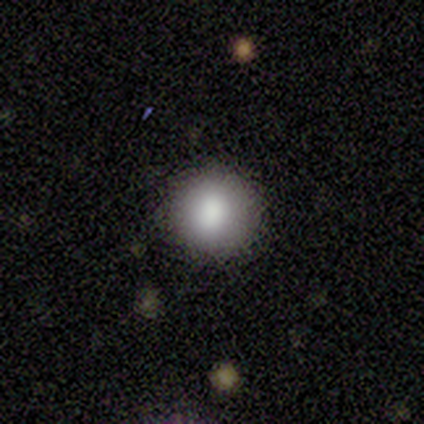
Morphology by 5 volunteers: smooth-or-featured: smooth: 100% | featured or disk: 0% | star or artifact: 0%
  how-rounded: round: 100% | in between: 0% | cigar-shaped: 0%
  merging: none: 100% | minor disturbance: 0% | major disturbance: 0% | merger: 0%